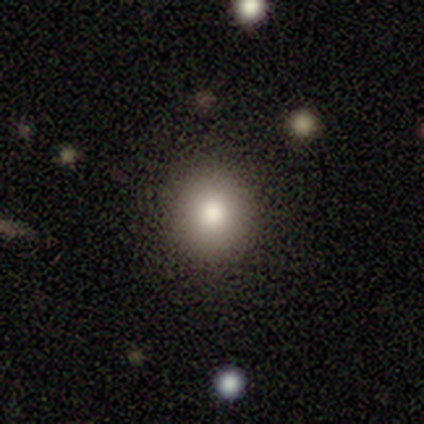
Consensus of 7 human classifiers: Smooth or featured: smooth — 100%
How rounded: round — 100%
Merging: none — 86% (major disturbance — 14%)